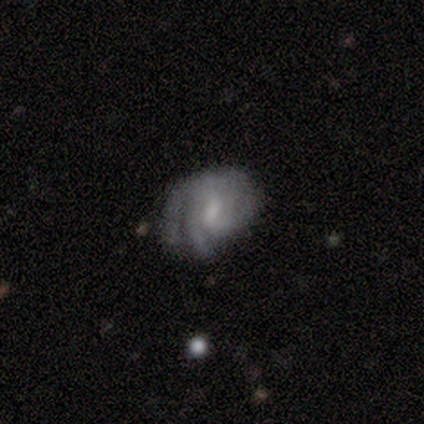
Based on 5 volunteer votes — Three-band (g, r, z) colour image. It shows a featured or disk galaxy (100%) with a weak bar (80%), 2 (80%) tight (80%) spiral arms (100%) and a moderate central bulge (40%, tied with small). Merging: minor disturbance (80%).